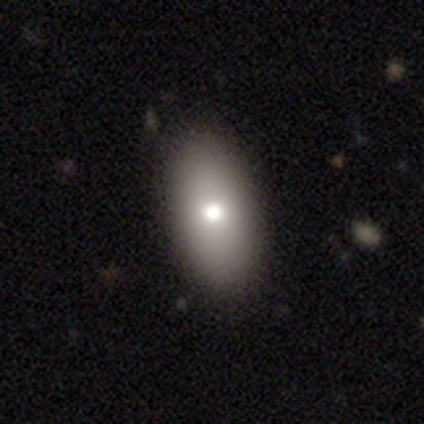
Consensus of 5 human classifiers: This is clearly a smooth galaxy (80%). How rounded: clearly in between (100%). Merging: clearly none (80%).